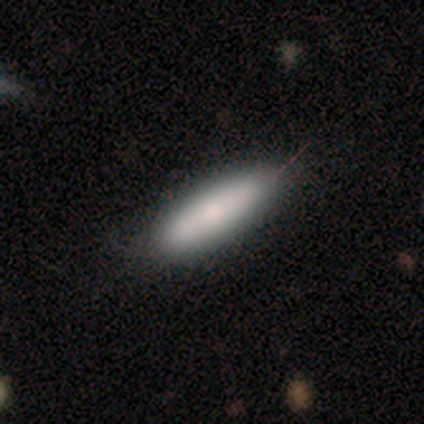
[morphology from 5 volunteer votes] Smooth or featured? smooth (80%)
How rounded? in between (50%, tied with cigar-shaped)
Merging? none (100%)